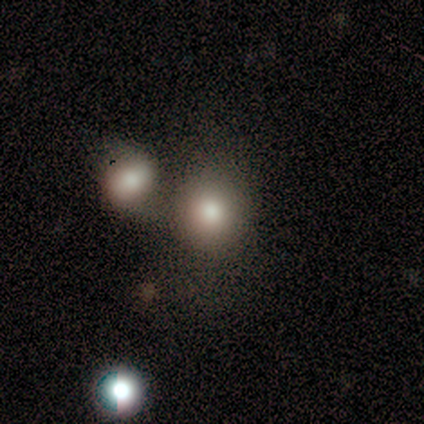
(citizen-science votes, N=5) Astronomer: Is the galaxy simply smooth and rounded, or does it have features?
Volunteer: smooth — 40%, tied with featured or disk at 40%.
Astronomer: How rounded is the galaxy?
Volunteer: round — 100%.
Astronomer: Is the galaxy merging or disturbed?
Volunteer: none — 50%, tied with merger at 50%.